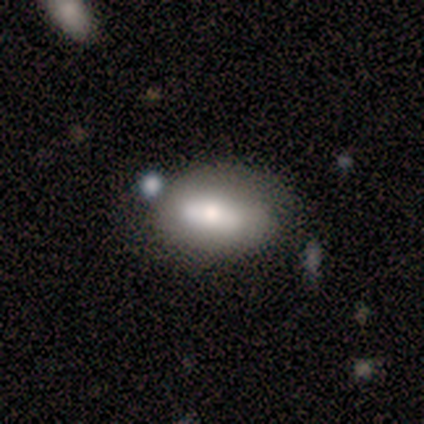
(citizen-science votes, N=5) smooth 80%, featured or disk 20%, star or artifact 0%. Down the decision tree: how rounded — in between (100%); merging — none (40%, tied with minor disturbance).